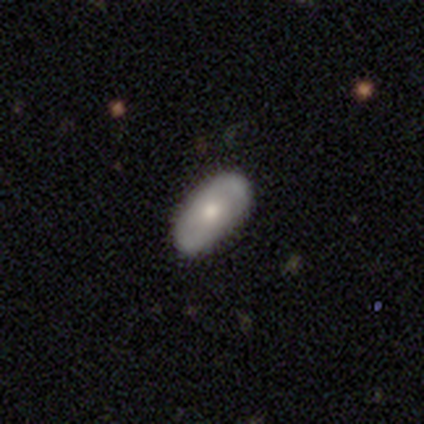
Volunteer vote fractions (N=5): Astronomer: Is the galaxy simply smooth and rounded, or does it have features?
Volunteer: smooth — 80%.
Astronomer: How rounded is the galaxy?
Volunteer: in between — 100%.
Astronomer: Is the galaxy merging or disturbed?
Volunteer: none — 100%.